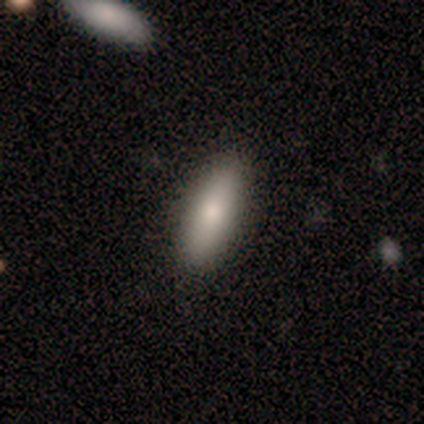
Q: Smooth or featured?
A: smooth (82%); runner-up: featured or disk (9%)
Q: How rounded?
A: in between (56%); runner-up: cigar-shaped (44%)
Q: Merging?
A: none (80%); runner-up: minor disturbance (20%)